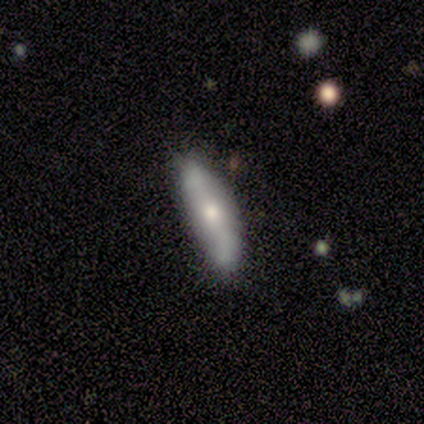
This is likely a smooth galaxy (60%). How rounded: likely cigar-shaped (67%). Merging: clearly none (80%).